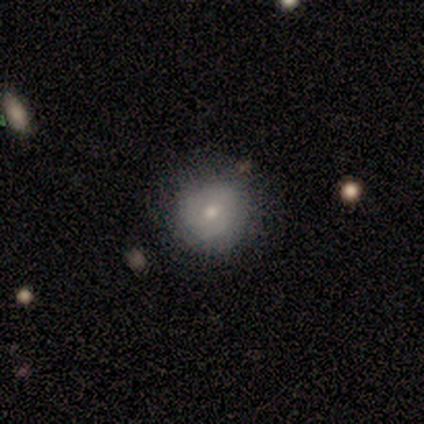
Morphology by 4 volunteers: This is possibly a smooth galaxy (50%, tied with featured or disk). How rounded: clearly round (100%). Merging: possibly none (50%, tied with minor disturbance).